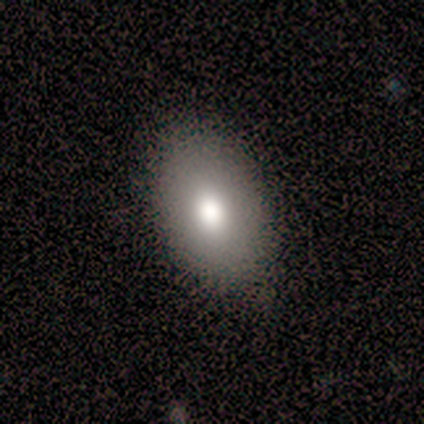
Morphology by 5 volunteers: A smooth galaxy with no disk features (100%) that is in between round and cigar-shaped (100%). Merging: none (100%).